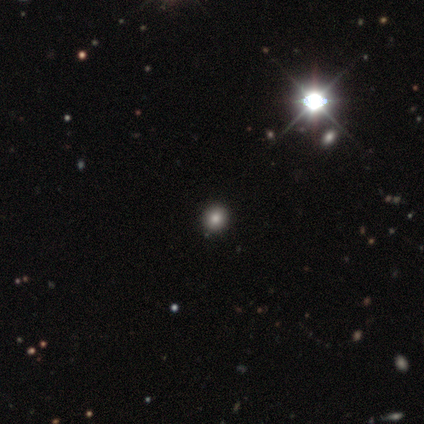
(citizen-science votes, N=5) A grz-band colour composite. It shows a smooth galaxy with no disk features (60%) that is round (100%). Merging: none (100%).